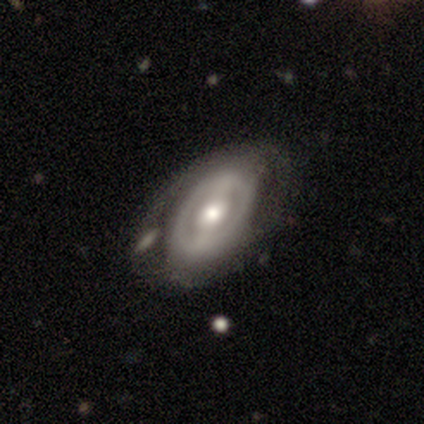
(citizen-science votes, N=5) This appears to be a featured or disk galaxy (80%) with a strong bar (67%), no spiral arms (100%) and a moderate central bulge (67%). Merging: none (60%).